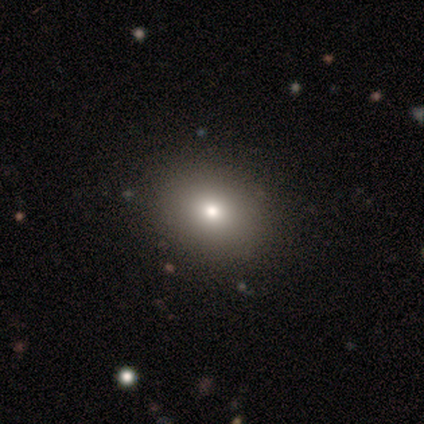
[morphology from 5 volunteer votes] smooth-or-featured: smooth: 80% | star or artifact: 20% | featured or disk: 0%
  how-rounded: in between: 75% | round: 25% | cigar-shaped: 0%
  merging: none: 100% | minor disturbance: 0% | major disturbance: 0% | merger: 0%